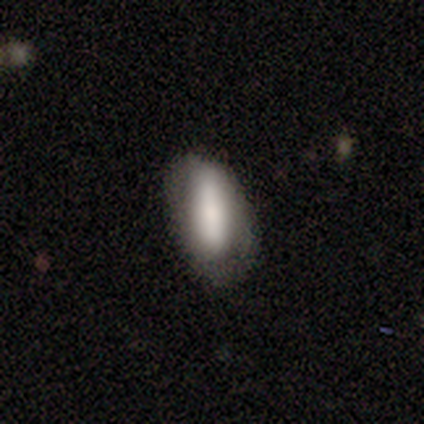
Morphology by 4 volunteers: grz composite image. It shows a smooth galaxy with no disk features (100%) that is in between round and cigar-shaped (50%, tied with cigar-shaped). Merging: none (75%).